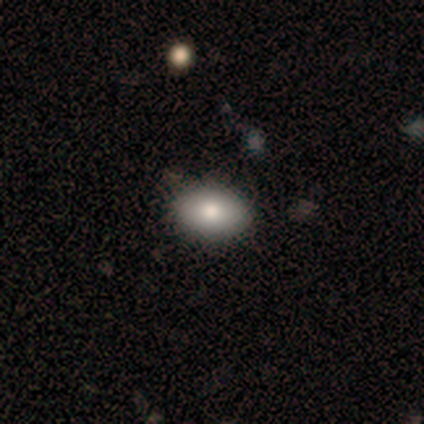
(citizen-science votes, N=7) This is clearly a smooth galaxy (86%). How rounded: likely in between (67%). Merging: clearly none (86%).